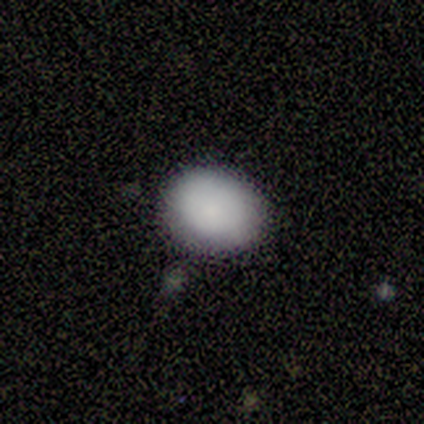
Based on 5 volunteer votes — smooth_or_featured: smooth (p=1.00)
how_rounded: in between (p=0.60) [alt: round p=0.40]
merging: none (p=0.40) [tied with: minor disturbance p=0.40]